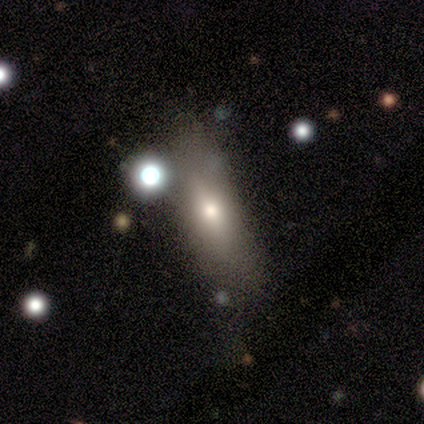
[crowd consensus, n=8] Smooth or featured: smooth — 75% (featured or disk — 12%)
How rounded: round — 33% (tied with in between — 33%; cigar-shaped — 33%)
Merging: none — 43% (major disturbance — 29%)